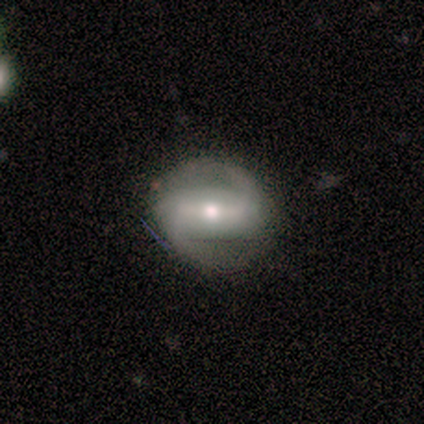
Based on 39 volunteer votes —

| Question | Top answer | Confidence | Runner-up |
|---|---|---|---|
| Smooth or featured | featured or disk | 72% | smooth (26%) |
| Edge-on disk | no | 82% | yes (18%) |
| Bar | strong | 70% | weak (26%) |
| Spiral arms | yes | 96% | no (4%) |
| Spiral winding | medium | 41% | loose (32%) |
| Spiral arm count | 2 | 95% | can't tell (5%) |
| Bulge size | moderate | 61% | small (26%) |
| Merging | none | 71% | minor disturbance (16%) |